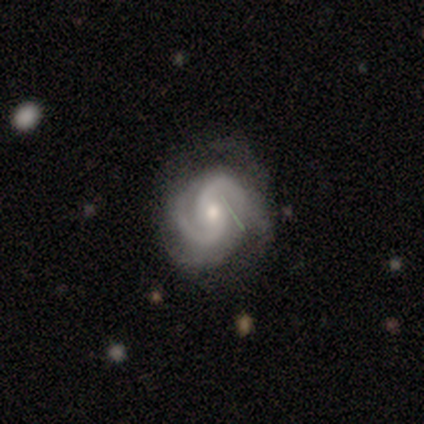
smooth_or_featured: featured or disk (p=1.00)
disk_edge_on: no (p=1.00)
bar: no (p=0.75) [alt: weak p=0.25]
has_spiral_arms: yes (p=1.00)
spiral_winding: medium (p=0.75) [alt: loose p=0.25]
spiral_arm_count: 2 (p=0.75) [alt: 3 p=0.25]
bulge_size: moderate (p=0.50) [alt: small p=0.25]
merging: none (p=0.75) [alt: major disturbance p=0.25]